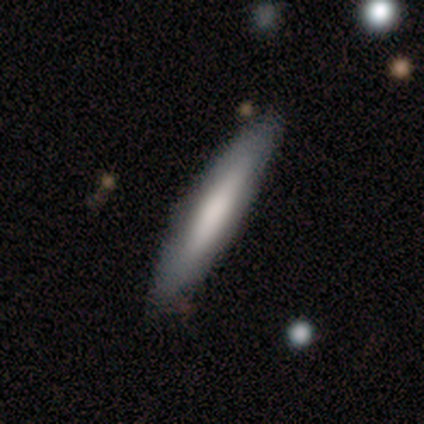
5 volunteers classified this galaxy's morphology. type=featured or disk (60%); edge-on=yes (67%); edge-on bulge=boxy (50%, tied with rounded); merging=none (80%).